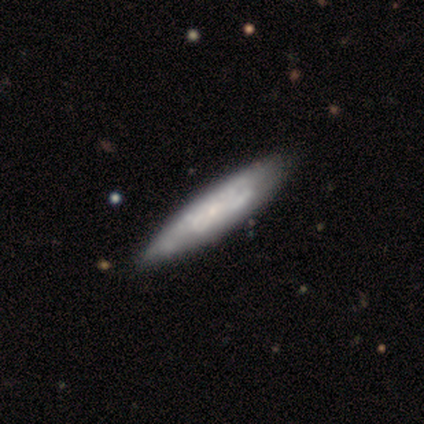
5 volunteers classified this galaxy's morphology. type=featured or disk (60%); edge-on=yes (67%); edge-on bulge=none (50%, tied with rounded); merging=none (80%).